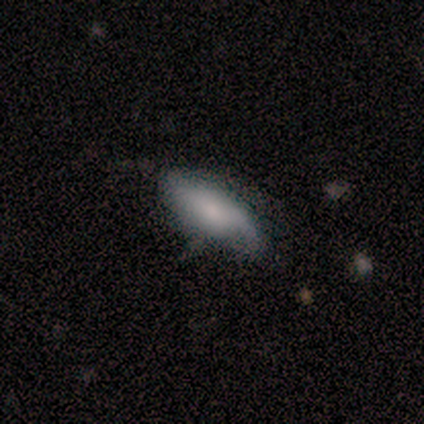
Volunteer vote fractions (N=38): Overall: smooth (61%; featured or disk 29%). How rounded: in between (70%; cigar-shaped 30%). Merging: none (62%; minor disturbance 35%).